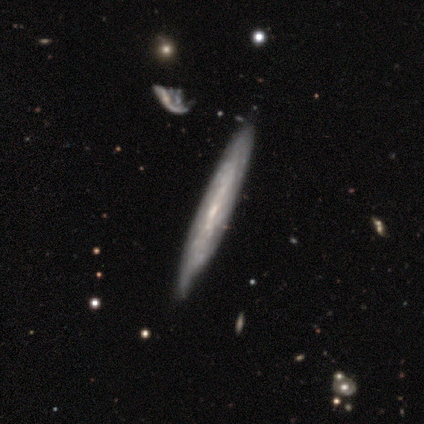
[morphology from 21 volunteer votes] Smooth or featured: featured or disk — 62% (smooth — 29%)
Edge-on disk: no — 62% (yes — 38%)
Bar: no — 88% (weak — 12%)
Spiral arms: yes — 88% (no — 12%)
Spiral winding: tight — 57% (medium — 43%)
Spiral arm count: can't tell — 86% (more than 4 — 14%)
Bulge size: small — 62% (moderate — 25%)
Merging: none — 53% (minor disturbance — 32%)